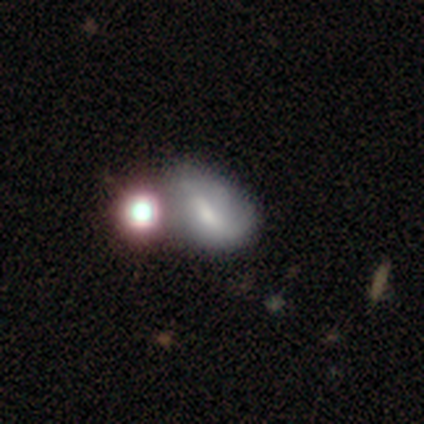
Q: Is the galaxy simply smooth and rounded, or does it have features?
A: smooth — 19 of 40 (48%).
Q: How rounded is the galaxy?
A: in between — 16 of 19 (84%).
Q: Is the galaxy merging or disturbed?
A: merger — 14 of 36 (39%).